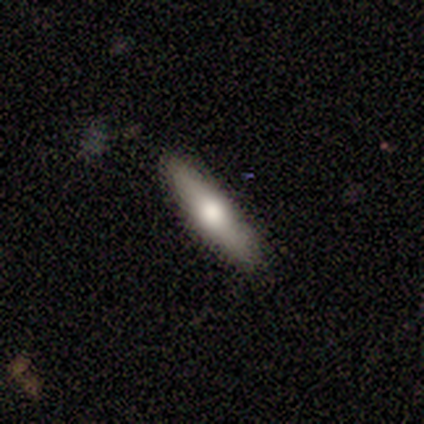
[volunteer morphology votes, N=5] Smooth or featured: smooth — 80% (featured or disk — 20%)
How rounded: cigar-shaped — 75% (in between — 25%)
Merging: none — 100%